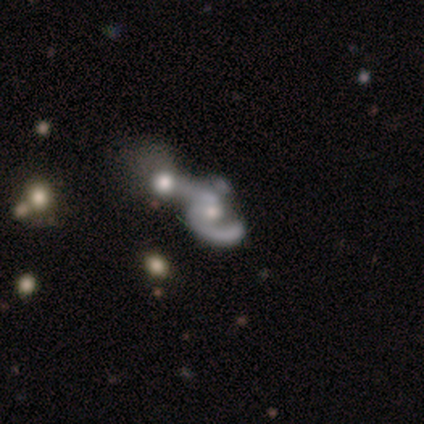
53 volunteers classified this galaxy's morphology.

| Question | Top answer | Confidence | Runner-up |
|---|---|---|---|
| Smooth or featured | featured or disk | 74% | smooth (15%) |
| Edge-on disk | no | 97% | yes (3%) |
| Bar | no | 84% | weak (16%) |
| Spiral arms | yes | 74% | no (26%) |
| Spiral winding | medium | 43% | loose (36%) |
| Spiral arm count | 1 | 46% | 2 (43%) |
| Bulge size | moderate | 63% | small (24%) |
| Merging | merger | 70% | major disturbance (15%) |